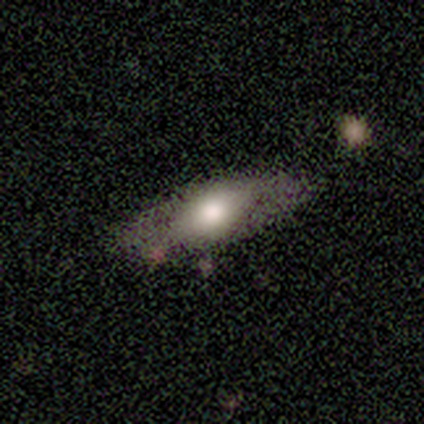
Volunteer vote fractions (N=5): smooth 60%, featured or disk 20%, star or artifact 20%. Down the decision tree: how rounded — in between (67%); merging — none (100%).